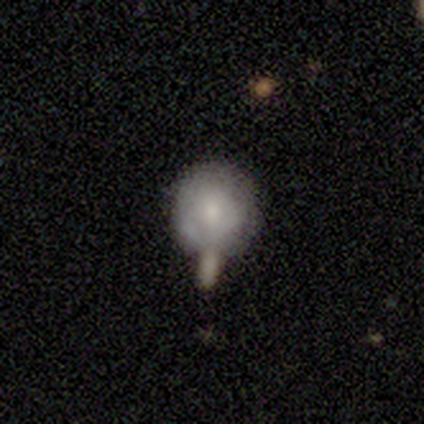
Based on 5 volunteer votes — Q: Smooth or featured?
A: smooth (60%); runner-up: featured or disk (40%)
Q: How rounded?
A: round (100%)
Q: Merging?
A: merger (60%); runner-up: minor disturbance (20%)